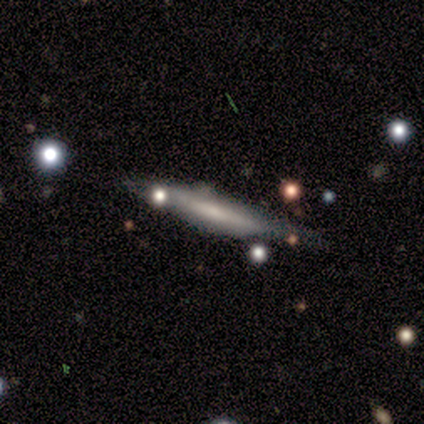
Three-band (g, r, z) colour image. It shows a smooth galaxy with no disk features (40%, tied with featured or disk) that is cigar-shaped (100%). Merging: none (100%).